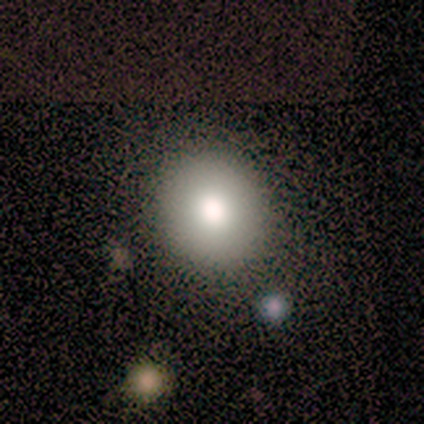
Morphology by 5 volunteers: Overall: smooth (80%). How rounded: round (100%). Merging: none (100%).